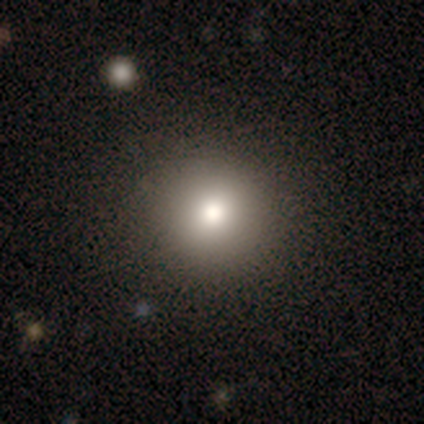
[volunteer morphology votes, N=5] smooth 80%, star or artifact 20%, featured or disk 0%. Down the decision tree: how rounded — round (100%); merging — none (75%).